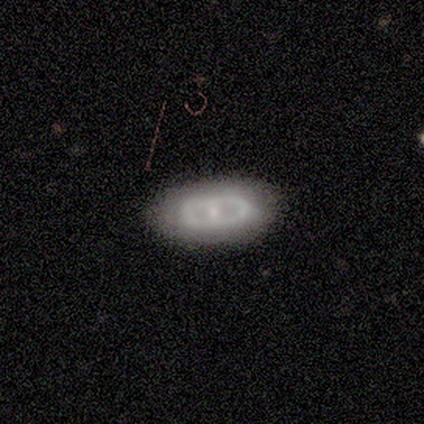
featured or disk 80%, smooth 20%, star or artifact 0%. Down the decision tree: edge-on disk — no (100%); bar — weak (50%, tied with no); spiral arms — no (100%); bulge size — small (50%); merging — none (80%).